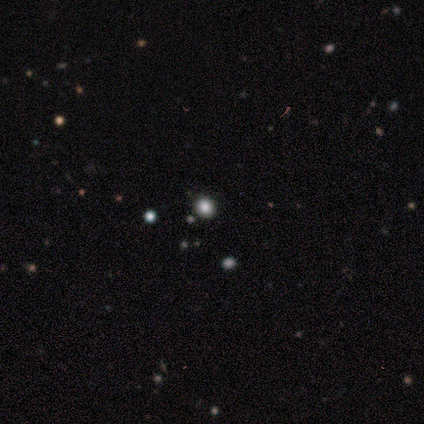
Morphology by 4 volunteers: Smooth or featured? smooth (75%)
How rounded? in between (67%)
Merging? none (100%)